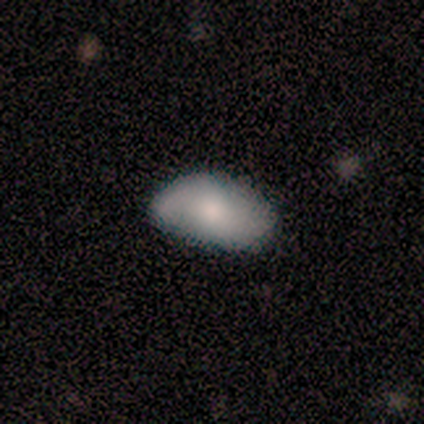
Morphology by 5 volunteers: Q: Smooth or featured?
A: smooth (60%); runner-up: featured or disk (40%)
Q: How rounded?
A: in between (100%)
Q: Merging?
A: none (80%); runner-up: minor disturbance (20%)